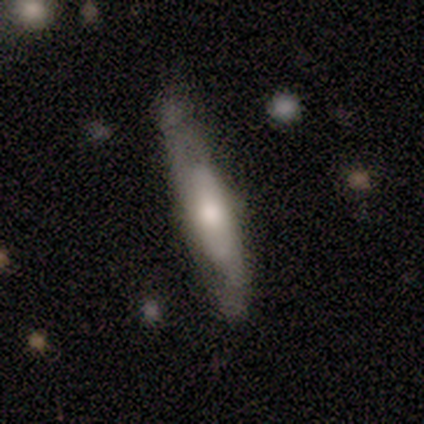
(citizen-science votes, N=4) Smooth or featured? smooth (75%)
How rounded? cigar-shaped (100%)
Merging? none (75%)